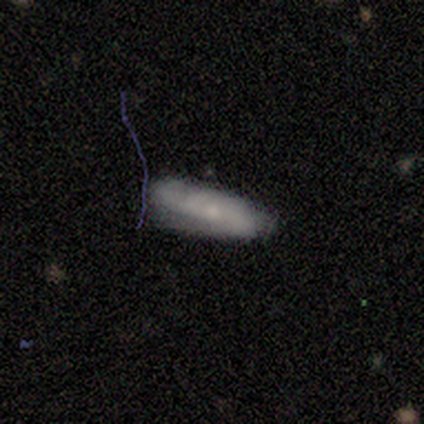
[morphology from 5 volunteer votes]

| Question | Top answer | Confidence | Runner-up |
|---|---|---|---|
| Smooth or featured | smooth | 60% | featured or disk (20%) |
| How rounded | cigar-shaped | 67% | in between (33%) |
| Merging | none | 75% | major disturbance (25%) |